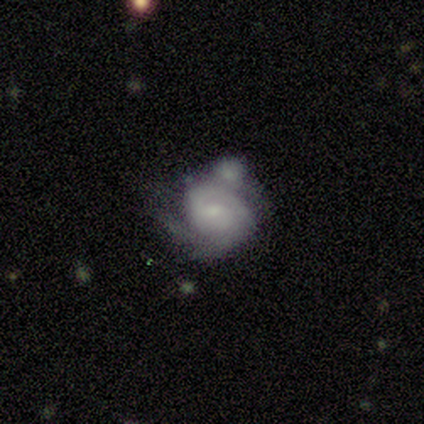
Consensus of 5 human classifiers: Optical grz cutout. It shows a featured or disk galaxy (80%) with no bar (75%), 1 (50%, tied with 2) tight (75%) spiral arms (100%) and no central bulge (50%). Merging: minor disturbance (80%).